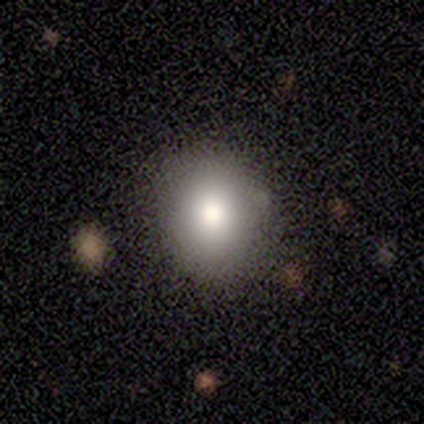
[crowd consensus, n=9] This is clearly a smooth galaxy (89%). How rounded: clearly round (100%). Merging: clearly none (100%).